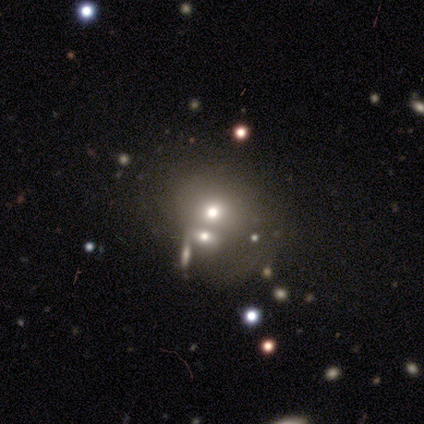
Volunteers were most divided on "merging": merger: 45%, none: 40%, major disturbance: 9%, minor disturbance: 6%. More confident: how rounded — round (64%); smooth or featured — smooth (54%).